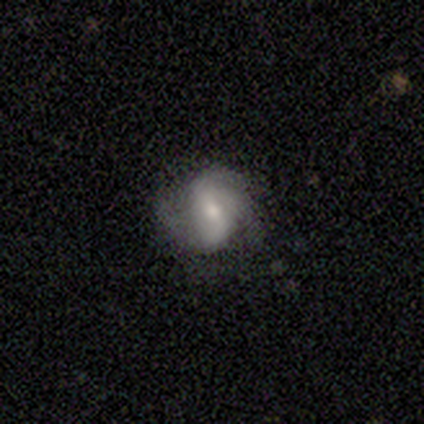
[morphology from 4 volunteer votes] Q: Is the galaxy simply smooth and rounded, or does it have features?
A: featured or disk — 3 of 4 (75%).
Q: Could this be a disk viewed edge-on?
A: no — 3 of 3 (100%).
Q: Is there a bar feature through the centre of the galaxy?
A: weak — 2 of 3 (67%).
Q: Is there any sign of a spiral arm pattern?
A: yes — 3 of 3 (100%).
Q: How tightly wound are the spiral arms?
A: medium — 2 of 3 (67%).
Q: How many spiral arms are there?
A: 2 — 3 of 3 (100%).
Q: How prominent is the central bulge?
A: large — 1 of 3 (33%, tied with moderate and small).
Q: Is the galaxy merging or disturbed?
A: none — 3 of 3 (100%).